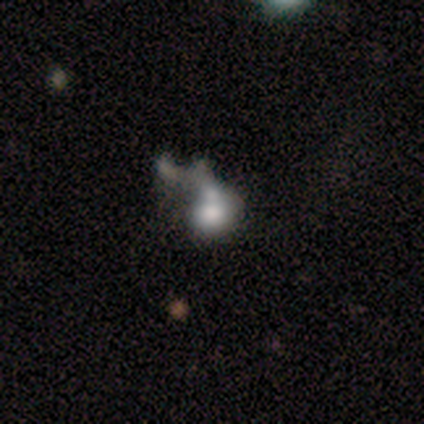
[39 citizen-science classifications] This is possibly a featured or disk galaxy (46%). It is clearly not viewed edge-on (100%). Bar: clearly no (89%). Spiral arm pattern: clearly no (94%). Central bulge: marginally large (44%). Merging: marginally merger (33%).